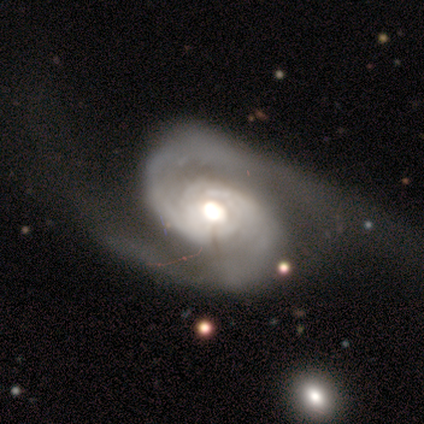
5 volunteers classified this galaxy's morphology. Smooth or featured?
  - featured or disk: 100% *
  - smooth: 0%
  - star or artifact: 0%
Edge-on disk?
  - no: 100% *
  - yes: 0%
Bar?
  - no: 100% *
  - strong: 0%
  - weak: 0%
Spiral arms?
  - yes: 100% *
  - no: 0%
Spiral winding?
  - medium: 60% *
  - tight: 20%
  - loose: 20%
Spiral arm count?
  - 2: 100% *
  - 1: 0%
  - 3: 0%
  - 4: 0%
  - more than 4: 0%
  - can't tell: 0%
Bulge size?
  - moderate: 60% *
  - large: 40%
  - dominant: 0%
  - small: 0%
  - none: 0%
Merging?
  - major disturbance: 60% *
  - none: 40%
  - minor disturbance: 0%
  - merger: 0%